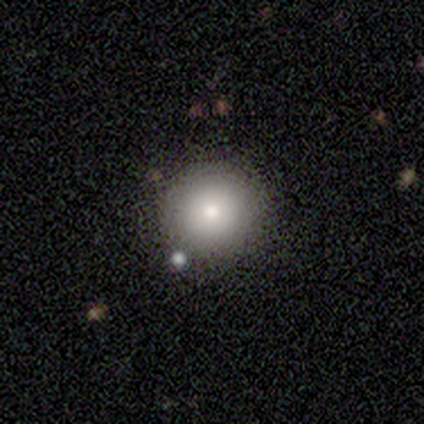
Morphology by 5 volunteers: Smooth or featured?
  - smooth: 100% *
  - featured or disk: 0%
  - star or artifact: 0%
How rounded?
  - round: 100% *
  - in between: 0%
  - cigar-shaped: 0%
Merging?
  - none: 100% *
  - minor disturbance: 0%
  - major disturbance: 0%
  - merger: 0%